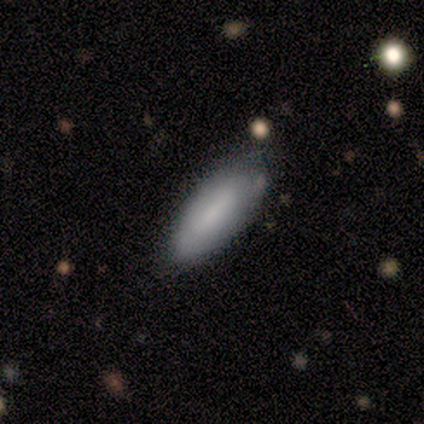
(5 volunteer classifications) smooth-or-featured: smooth: 80% | featured or disk: 20% | star or artifact: 0%
  how-rounded: in between: 100% | round: 0% | cigar-shaped: 0%
  merging: none: 60% | minor disturbance: 40% | major disturbance: 0% | merger: 0%